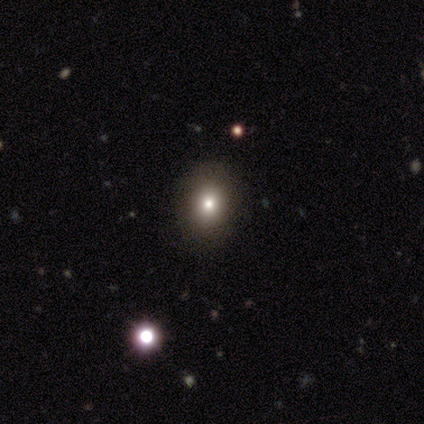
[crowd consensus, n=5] Smooth or featured?
  - smooth: 80% *
  - star or artifact: 20%
  - featured or disk: 0%
How rounded?
  - round: 75% *
  - in between: 25%
  - cigar-shaped: 0%
Merging?
  - none: 100% *
  - minor disturbance: 0%
  - major disturbance: 0%
  - merger: 0%